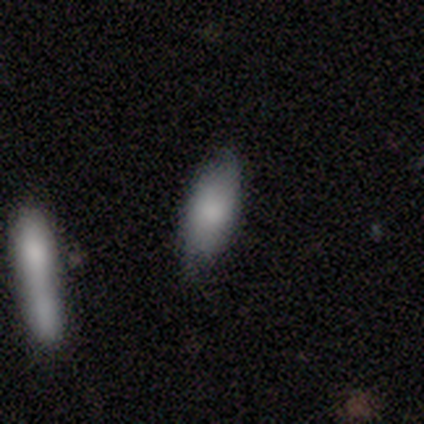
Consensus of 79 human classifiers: This is likely a smooth galaxy (76%). How rounded: likely in between (70%). Merging: possibly none (60%).